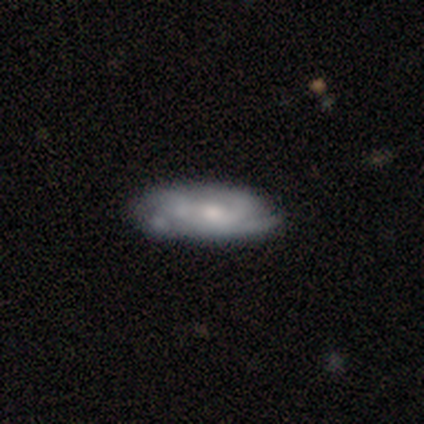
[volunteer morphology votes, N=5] This is likely a smooth galaxy (60%). How rounded: likely in between (67%). Merging: likely none (60%).